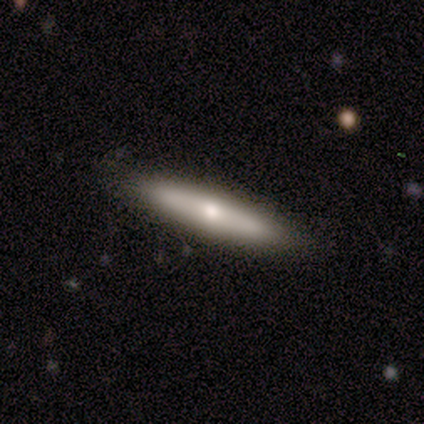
A featured or disk galaxy (60%) viewed edge-on (67%) with a rounded central bulge (100%). Merging: none (100%).